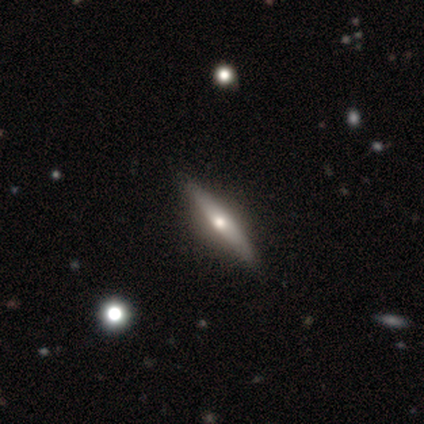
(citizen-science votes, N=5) A featured or disk galaxy (80%) viewed edge-on (100%) with a rounded central bulge (75%).

Vote fractions:
- Smooth or featured? featured or disk: 80% / smooth: 20% / star or artifact: 0%
- Edge-on disk? yes: 100% / no: 0%
- Edge-on bulge? rounded: 75% / none: 25% / boxy: 0%
- Merging? none: 60% / minor disturbance: 20% / major disturbance: 20% / merger: 0%